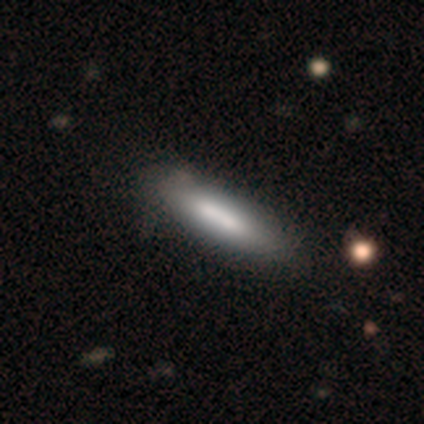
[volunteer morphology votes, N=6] Q: Smooth or featured?
A: smooth (83%); runner-up: featured or disk (17%)
Q: How rounded?
A: cigar-shaped (80%); runner-up: in between (20%)
Q: Merging?
A: none (50%); runner-up: minor disturbance (17%)